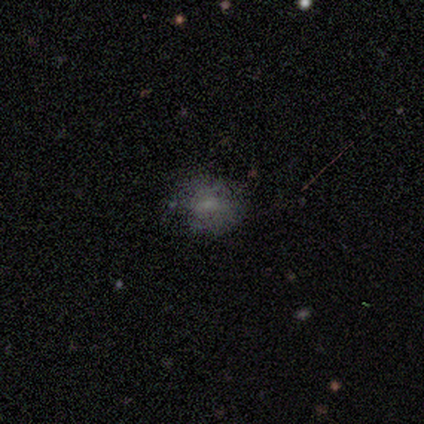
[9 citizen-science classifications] Smooth or featured? smooth (44%, tied with featured or disk)
How rounded? round (50%)
Merging? none (62%)